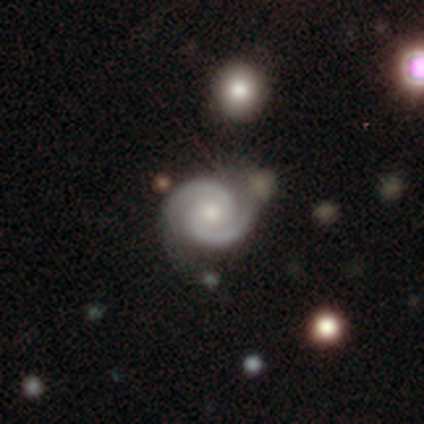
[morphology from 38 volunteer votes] type=featured or disk (84%); edge-on=no (94%); bar=no (53%); spiral arms=yes (100%); winding=tight (60%); arm count=2 (90%); bulge=moderate (47%); merging=none (69%).